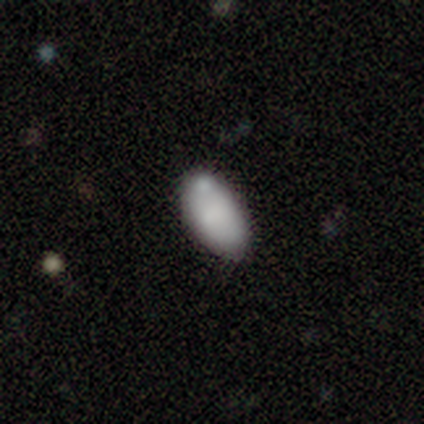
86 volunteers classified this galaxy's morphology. smooth-or-featured: smooth: 78% | featured or disk: 16% | star or artifact: 6%
  how-rounded: in between: 96% | round: 3% | cigar-shaped: 1%
  merging: none: 60% | minor disturbance: 25% | merger: 11% | major disturbance: 4%